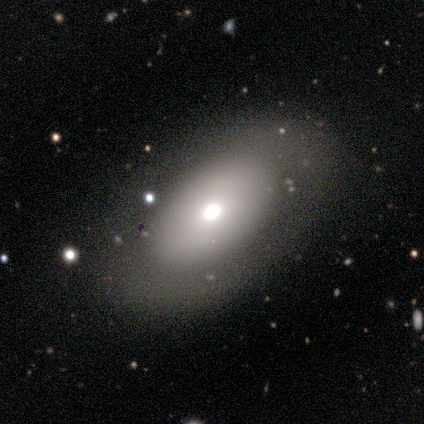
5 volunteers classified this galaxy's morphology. smooth 60%, featured or disk 40%, star or artifact 0%. Down the decision tree: how rounded — in between (67%); merging — none (80%).